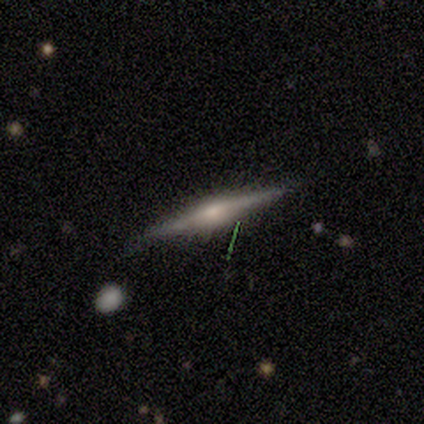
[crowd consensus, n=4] This is clearly a featured or disk galaxy (100%). It is clearly viewed edge-on (100%). Edge-on bulge: likely rounded (75%). Merging: clearly none (100%).